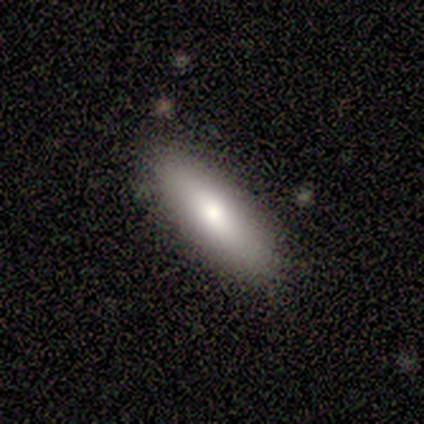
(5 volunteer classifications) Volunteers were most divided on "how rounded" (2-way tie): in between: 50%, cigar-shaped: 50%, round: 0%. More confident: merging — none (100%); smooth or featured — smooth (80%).